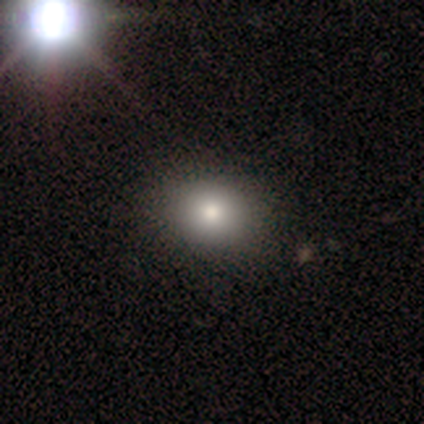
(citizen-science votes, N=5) This is clearly a smooth galaxy (80%). How rounded: clearly round (100%). Merging: clearly none (80%).